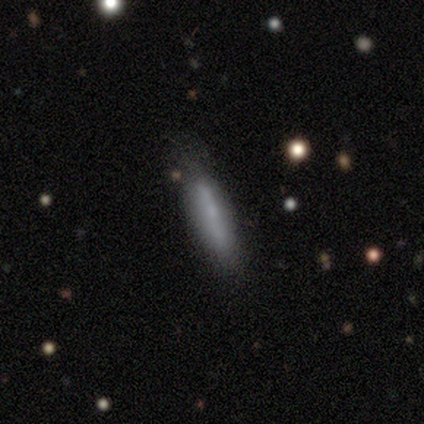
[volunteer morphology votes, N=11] smooth_or_featured: smooth (p=0.45) [tied with: featured or disk p=0.45]
how_rounded: cigar-shaped (p=1.00)
merging: none (p=0.90) [alt: minor disturbance p=0.10]